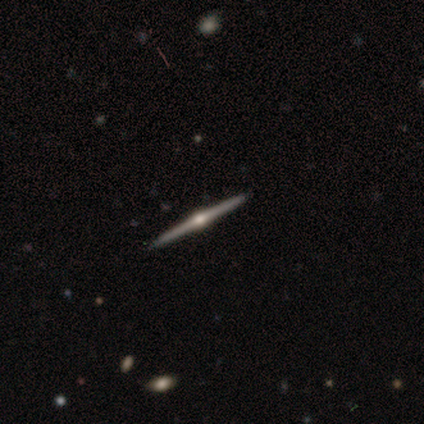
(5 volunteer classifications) smooth_or_featured: featured or disk (p=1.00)
disk_edge_on: yes (p=1.00)
edge_on_bulge: rounded (p=1.00)
merging: none (p=1.00)